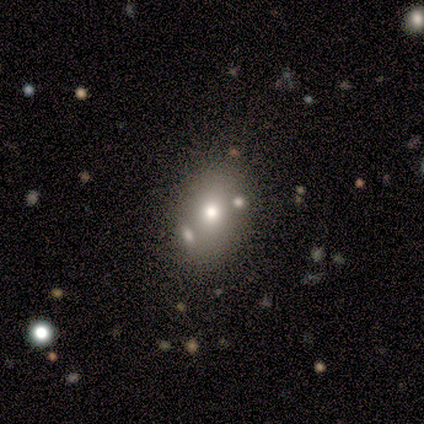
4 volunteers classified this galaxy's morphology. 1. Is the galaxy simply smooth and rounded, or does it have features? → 50% smooth, 25% featured or disk, 25% star or artifact.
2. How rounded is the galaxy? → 100% in between, 0% round, 0% cigar-shaped.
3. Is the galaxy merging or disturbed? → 67% minor disturbance, 33% merger, 0% none, 0% major disturbance.